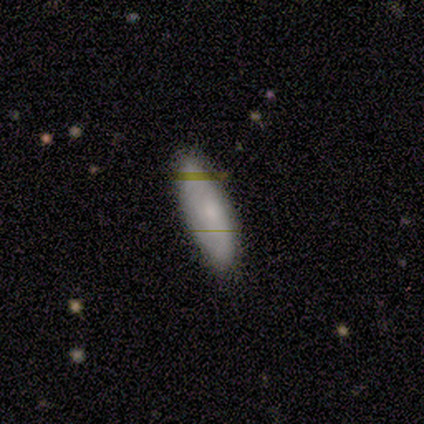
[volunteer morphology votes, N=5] smooth 60%, featured or disk 20%, star or artifact 20%. Down the decision tree: how rounded — in between (100%); merging — none (100%).